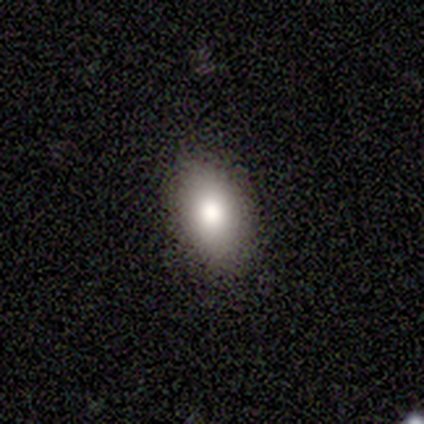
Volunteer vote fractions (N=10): Smooth or featured? smooth (90%)
How rounded? in between (100%)
Merging? none (100%)